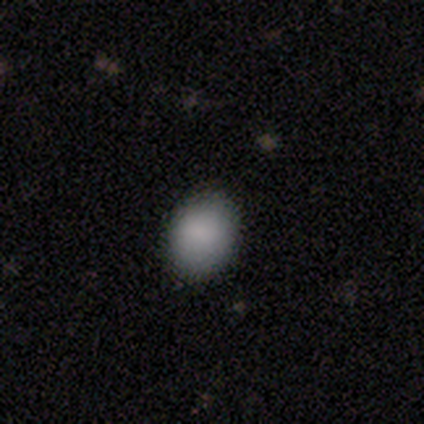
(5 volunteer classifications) Volunteers were most divided on "merging" (2-way tie): none: 40%, major disturbance: 40%, minor disturbance: 20%, merger: 0%. More confident: smooth or featured — smooth (100%); how rounded — round (80%).